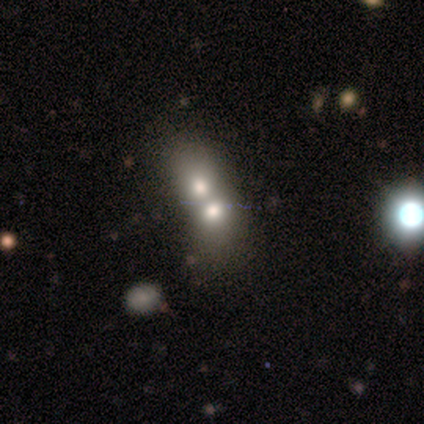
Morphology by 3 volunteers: smooth_or_featured: smooth (p=0.33) [tied with: featured or disk p=0.33, star or artifact p=0.33]
how_rounded: in between (p=1.00)
merging: merger (p=1.00)